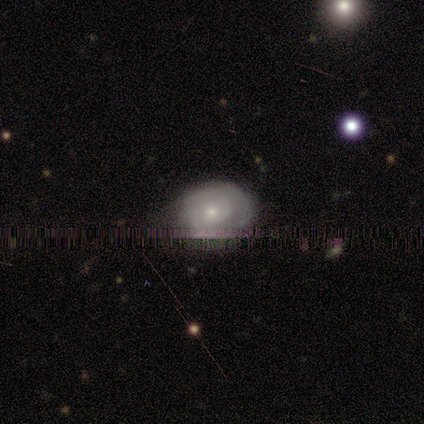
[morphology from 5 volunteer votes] Smooth or featured? 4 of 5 (80%) said featured or disk. Edge-on disk? 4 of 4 (100%) said no. Bar? 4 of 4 (100%) said no. Spiral arms? 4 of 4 (100%) said yes. Spiral winding? 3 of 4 (75%) said tight. Spiral arm count? 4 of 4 (100%) said 2. Bulge size? 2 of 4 (50%, tied with small) said moderate. Merging? 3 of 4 (75%) said none.